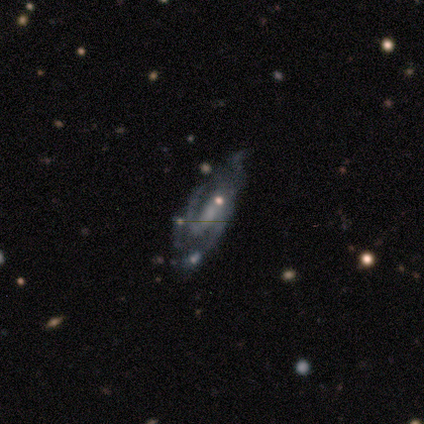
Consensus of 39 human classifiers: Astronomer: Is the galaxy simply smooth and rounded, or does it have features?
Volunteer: featured or disk — 69%.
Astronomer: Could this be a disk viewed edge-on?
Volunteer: no — 96%.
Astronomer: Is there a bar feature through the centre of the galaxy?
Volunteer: weak — 50% (runner-up: strong, 27%).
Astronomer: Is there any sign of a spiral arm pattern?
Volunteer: yes — 85%.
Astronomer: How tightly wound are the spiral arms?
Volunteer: loose — 50% (runner-up: medium, 32%).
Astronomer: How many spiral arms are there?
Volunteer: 2 — 64%.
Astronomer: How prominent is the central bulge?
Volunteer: none — 46% (runner-up: small, 35%).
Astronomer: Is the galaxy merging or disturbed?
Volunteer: none — 56%.